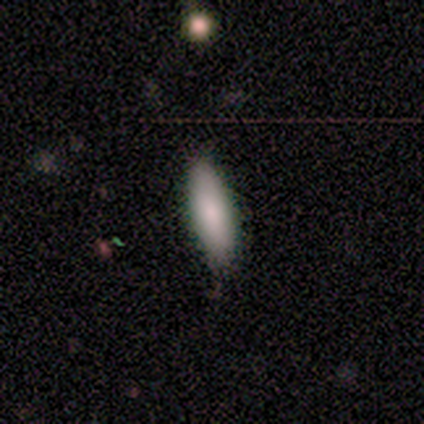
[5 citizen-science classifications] Smooth or featured?
  - smooth: 60% *
  - featured or disk: 20%
  - star or artifact: 20%
How rounded?
  - cigar-shaped: 67% *
  - in between: 33%
  - round: 0%
Merging?
  - none: 100% *
  - minor disturbance: 0%
  - major disturbance: 0%
  - merger: 0%